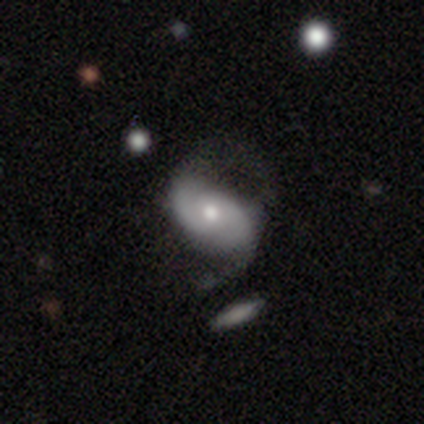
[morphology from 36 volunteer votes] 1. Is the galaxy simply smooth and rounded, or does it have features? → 72% featured or disk, 28% smooth, 0% star or artifact.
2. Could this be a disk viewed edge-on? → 92% no, 8% yes.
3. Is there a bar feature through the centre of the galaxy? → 75% no, 21% weak, 4% strong.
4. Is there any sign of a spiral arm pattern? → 100% yes, 0% no.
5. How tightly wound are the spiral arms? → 58% medium, 33% loose, 8% tight.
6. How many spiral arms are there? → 96% 2, 4% can't tell, 0% 1, 0% 3, 0% 4, 0% more than 4.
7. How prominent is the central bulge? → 71% moderate, 25% small, 4% large, 0% dominant, 0% none.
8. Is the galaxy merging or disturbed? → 50% none, 33% minor disturbance, 17% major disturbance, 0% merger.